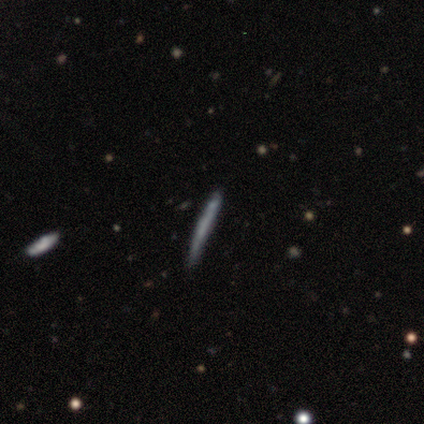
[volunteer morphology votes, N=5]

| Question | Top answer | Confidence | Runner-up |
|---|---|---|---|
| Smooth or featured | star or artifact | 80% | featured or disk (20%) |